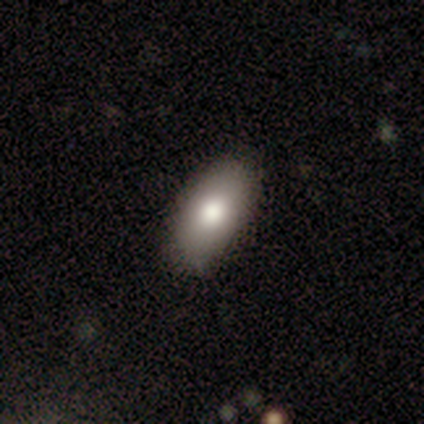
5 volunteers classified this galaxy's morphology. smooth 100%, featured or disk 0%, star or artifact 0%. Down the decision tree: how rounded — in between (100%); merging — none (100%).